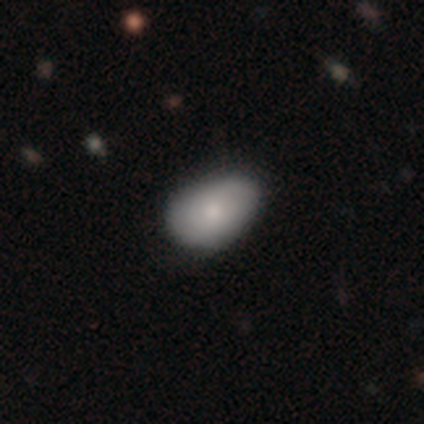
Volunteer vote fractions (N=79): Smooth or featured: smooth — 82% (featured or disk — 16%)
How rounded: in between — 98% (round — 2%)
Merging: none — 28% (minor disturbance — 18%)